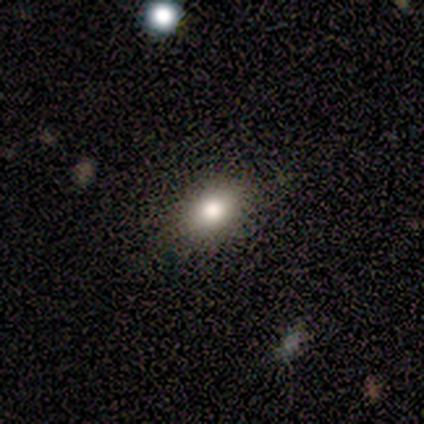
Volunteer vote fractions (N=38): Smooth or featured? smooth (74%)
How rounded? in between (71%)
Merging? none (74%)